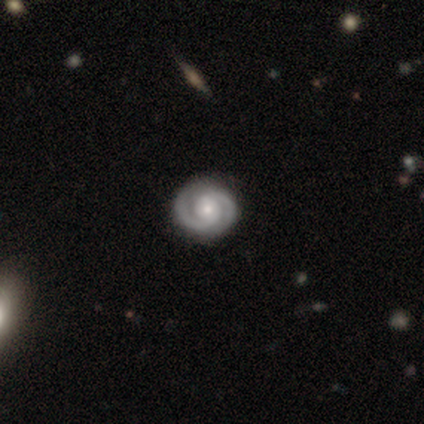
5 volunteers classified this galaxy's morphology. type=featured or disk (100%); edge-on=no (80%); bar=no (100%); spiral arms=yes (100%); winding=tight (75%); arm count=2 (100%); bulge=small (75%); merging=none (100%).